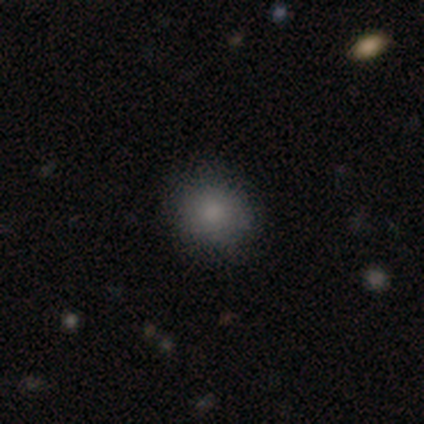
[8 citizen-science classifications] smooth-or-featured: smooth: 88% | star or artifact: 12% | featured or disk: 0%
  how-rounded: round: 71% | in between: 29% | cigar-shaped: 0%
  merging: none: 57% | minor disturbance: 43% | major disturbance: 0% | merger: 0%